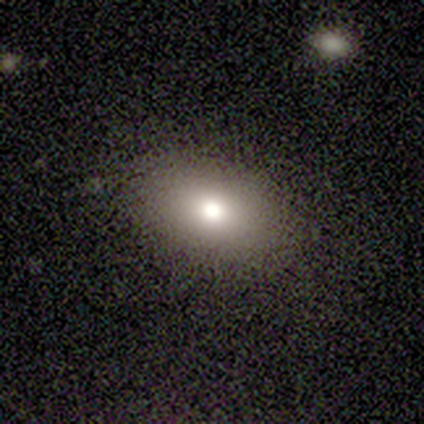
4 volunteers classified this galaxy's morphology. Smooth or featured: smooth — 75% (featured or disk — 25%)
How rounded: in between — 100%
Merging: none — 100%